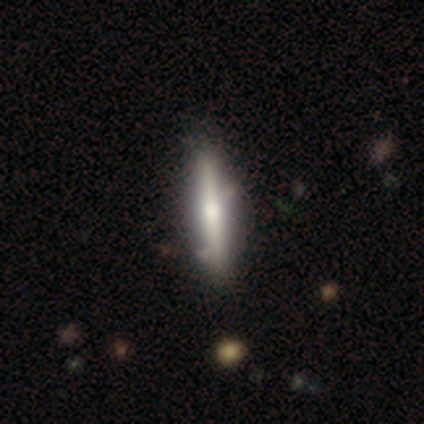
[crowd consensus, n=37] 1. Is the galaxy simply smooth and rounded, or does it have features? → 51% featured or disk, 46% smooth, 3% star or artifact.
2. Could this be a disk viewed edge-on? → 89% yes, 11% no.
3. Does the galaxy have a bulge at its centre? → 82% rounded, 12% boxy, 6% none.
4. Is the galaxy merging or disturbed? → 44% none, 14% minor disturbance, 8% merger, 0% major disturbance.